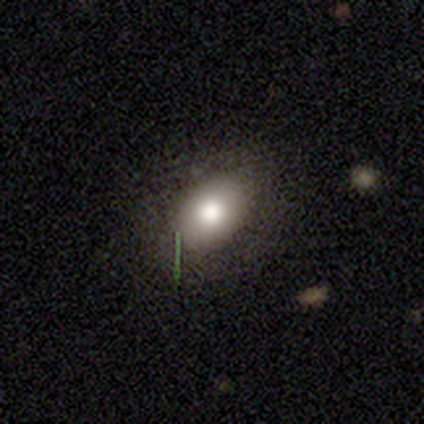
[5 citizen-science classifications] This is clearly a smooth galaxy (80%). How rounded: clearly in between (100%). Merging: clearly minor disturbance (80%).